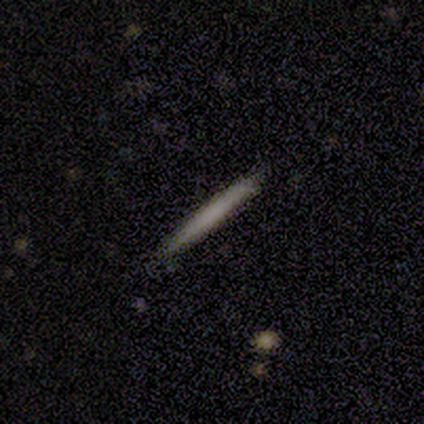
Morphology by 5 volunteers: smooth 100%, featured or disk 0%, star or artifact 0%. Down the decision tree: how rounded — cigar-shaped (100%); merging — none (80%).